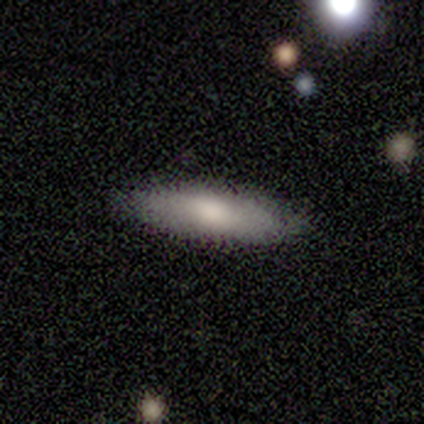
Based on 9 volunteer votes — Morphology: type=smooth (78%); roundness=cigar-shaped (86%); merging=none (89%).